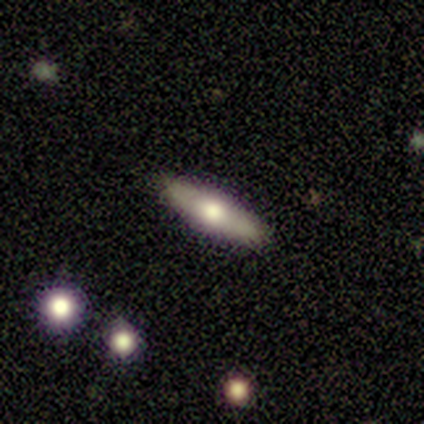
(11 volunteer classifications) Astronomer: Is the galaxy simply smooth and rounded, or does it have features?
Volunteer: featured or disk — 91%.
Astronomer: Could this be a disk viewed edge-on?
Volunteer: yes — 90%.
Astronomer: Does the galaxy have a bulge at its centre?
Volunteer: rounded — 100%.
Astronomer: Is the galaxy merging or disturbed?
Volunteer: none — 100%.